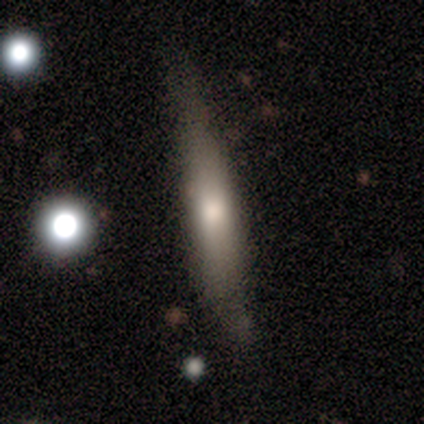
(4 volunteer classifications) smooth-or-featured: smooth: 50% (tied) | featured or disk: 50% (tied) | star or artifact: 0%
  how-rounded: cigar-shaped: 100% | round: 0% | in between: 0%
  merging: none: 50% (tied) | minor disturbance: 50% (tied) | major disturbance: 0% | merger: 0%